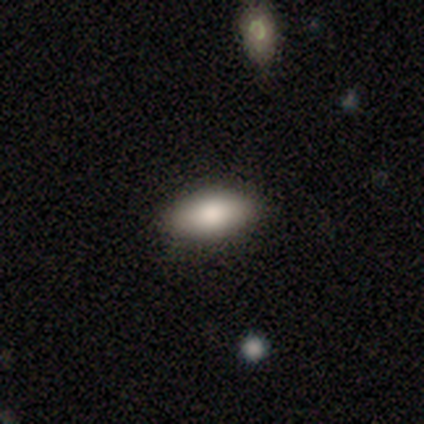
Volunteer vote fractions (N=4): smooth-or-featured: smooth: 50% (tied) | star or artifact: 50% (tied) | featured or disk: 0%
  how-rounded: in between: 100% | round: 0% | cigar-shaped: 0%
  merging: none: 100% | minor disturbance: 0% | major disturbance: 0% | merger: 0%